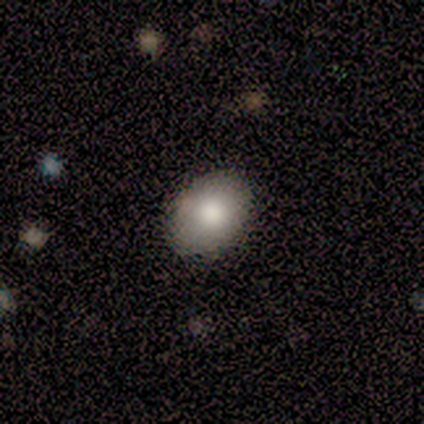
A smooth galaxy with no disk features (78%) that is in between round and cigar-shaped (86%). Merging: none (100%).